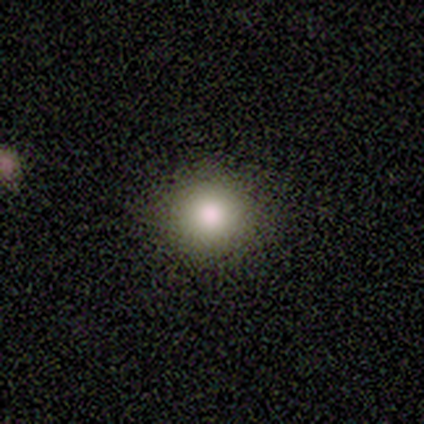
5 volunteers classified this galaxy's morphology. This appears to be a smooth galaxy with no disk features (100%) that is round (60%). Merging: none (60%).